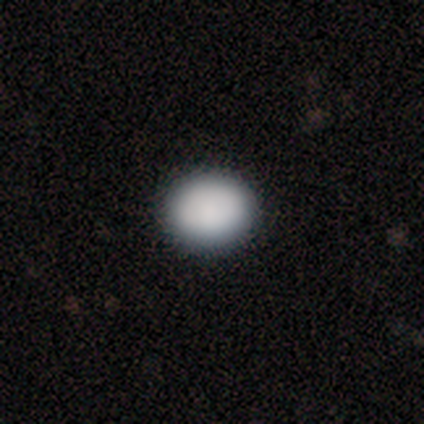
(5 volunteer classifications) Overall: smooth (100%). How rounded: round (80%). Merging: none (100%).